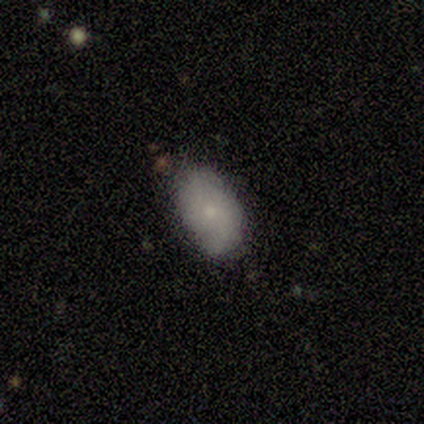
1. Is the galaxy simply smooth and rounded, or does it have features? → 78% smooth, 22% featured or disk, 0% star or artifact.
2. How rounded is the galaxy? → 97% in between, 3% cigar-shaped, 0% round.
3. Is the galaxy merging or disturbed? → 81% none, 19% minor disturbance, 0% major disturbance, 0% merger.